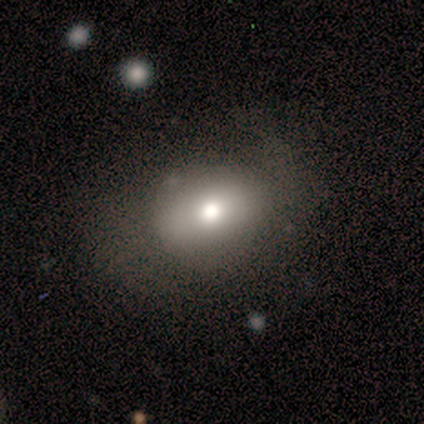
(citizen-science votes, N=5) smooth_or_featured: smooth (p=0.80) [alt: featured or disk p=0.20]
how_rounded: in between (p=0.75) [alt: round p=0.25]
merging: none (p=1.00)